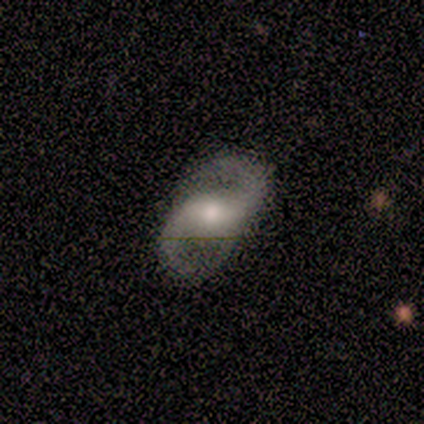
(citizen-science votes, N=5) A featured or disk galaxy (100%) with a weak bar (60%), 2 (100%) loose (60%) spiral arms (100%) and a moderate central bulge (40%, tied with small).

Vote fractions:
- Smooth or featured? featured or disk: 100% / smooth: 0% / star or artifact: 0%
- Edge-on disk? no: 100% / yes: 0%
- Bar? weak: 60% / strong: 40% / no: 0%
- Spiral arms? yes: 100% / no: 0%
- Spiral winding? loose: 60% / medium: 40% / tight: 0%
- Spiral arm count? 2: 100% / 1: 0% / 3: 0% / 4: 0% / more than 4: 0% / can't tell: 0%
- Bulge size? moderate: 40% (tied) / small: 40% (tied) / none: 20% / dominant: 0% / large: 0%
- Merging? none: 100% / minor disturbance: 0% / major disturbance: 0% / merger: 0%